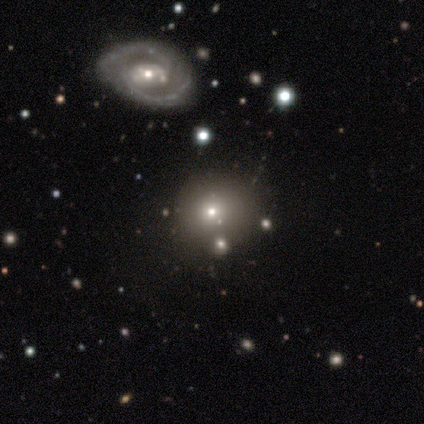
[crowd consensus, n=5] Smooth or featured? 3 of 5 (60%) said smooth. How rounded? 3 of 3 (100%) said round. Merging? 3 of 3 (100%) said none.